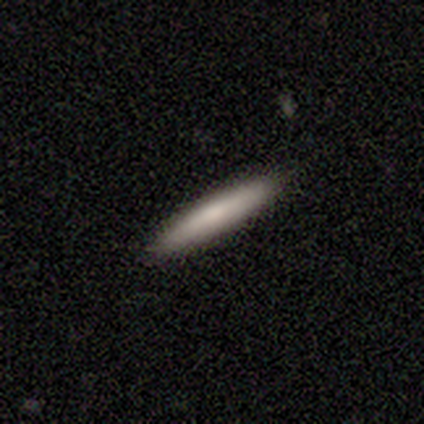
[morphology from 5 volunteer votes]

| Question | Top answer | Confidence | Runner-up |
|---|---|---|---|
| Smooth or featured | smooth | 100% | — |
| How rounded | cigar-shaped | 100% | — |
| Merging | none | 100% | — |